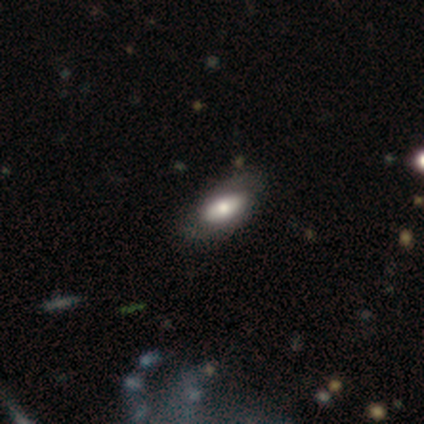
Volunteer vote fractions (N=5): This appears to be a featured or disk galaxy (60%) with a strong bar (67%), no spiral arms (67%) and a large central bulge (67%). Merging: none (80%).